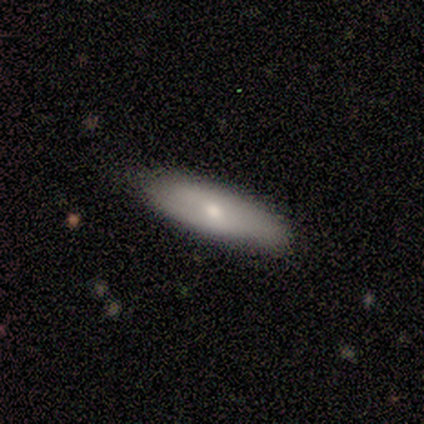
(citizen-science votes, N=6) Morphology: type=smooth (83%); roundness=in between (60%); merging=none (100%).